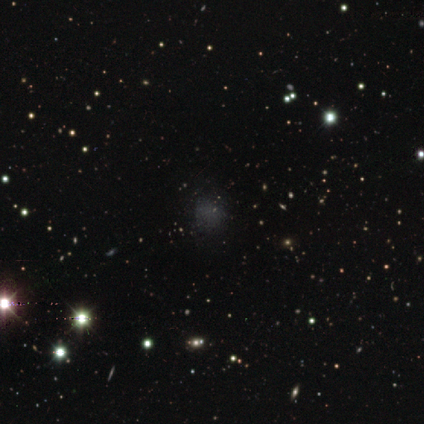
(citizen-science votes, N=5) This is likely a smooth galaxy (60%). How rounded: likely round (67%). Merging: clearly none (100%).